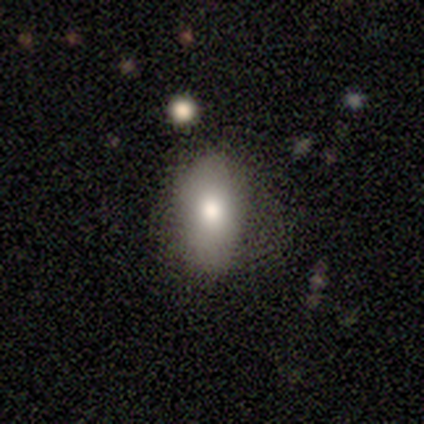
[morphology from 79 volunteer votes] Smooth or featured? smooth (87%)
How rounded? in between (93%)
Merging? none (44%)